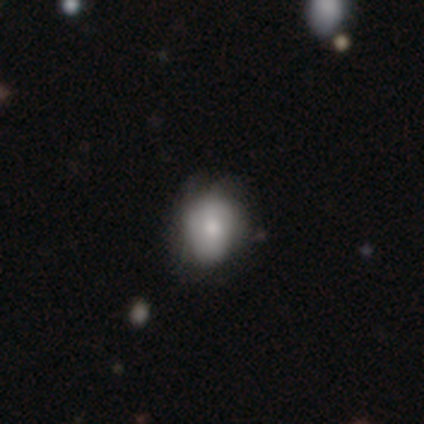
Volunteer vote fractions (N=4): smooth_or_featured: smooth (p=1.00)
how_rounded: round (p=0.75) [alt: in between p=0.25]
merging: none (p=0.75) [alt: minor disturbance p=0.25]